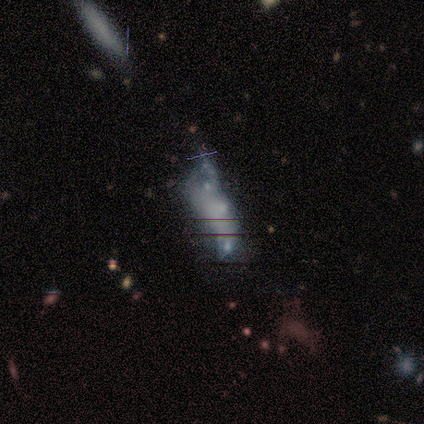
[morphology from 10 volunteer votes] Q: Smooth or featured?
A: smooth (50%); runner-up: featured or disk (30%)
Q: How rounded?
A: in between (60%); runner-up: round (20%)
Q: Merging?
A: merger (50%); runner-up: minor disturbance (25%)